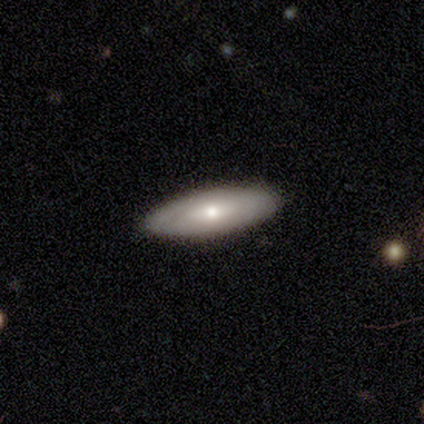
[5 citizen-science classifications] smooth 60%, featured or disk 40%, star or artifact 0%. Down the decision tree: how rounded — in between (67%); merging — none (100%).